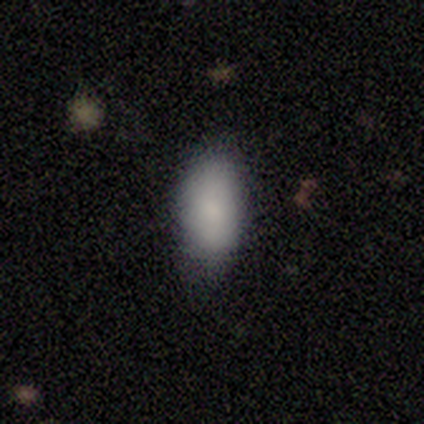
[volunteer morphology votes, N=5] smooth 100%, featured or disk 0%, star or artifact 0%. Down the decision tree: how rounded — in between (100%); merging — minor disturbance (80%).